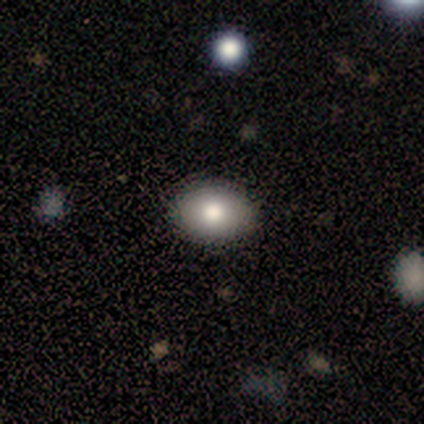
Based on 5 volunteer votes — A smooth galaxy with no disk features (80%) that is round (75%).

Vote fractions:
- Smooth or featured? smooth: 80% / star or artifact: 20% / featured or disk: 0%
- How rounded? round: 75% / in between: 25% / cigar-shaped: 0%
- Merging? none: 100% / minor disturbance: 0% / major disturbance: 0% / merger: 0%